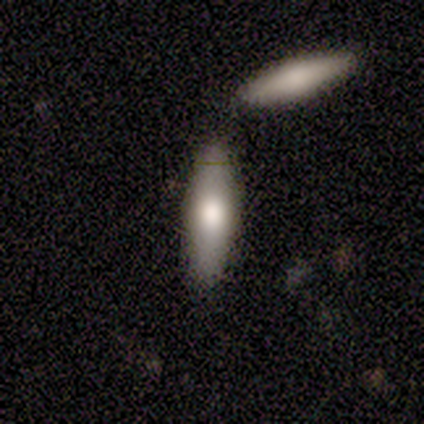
Smooth or featured? 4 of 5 (80%) said smooth. How rounded? 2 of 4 (50%, tied with cigar-shaped) said in between. Merging? 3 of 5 (60%) said none.